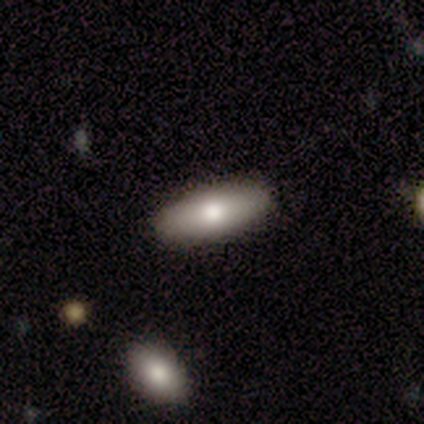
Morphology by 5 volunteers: A smooth galaxy with no disk features (80%) that is in between round and cigar-shaped (100%). Merging: none (100%).